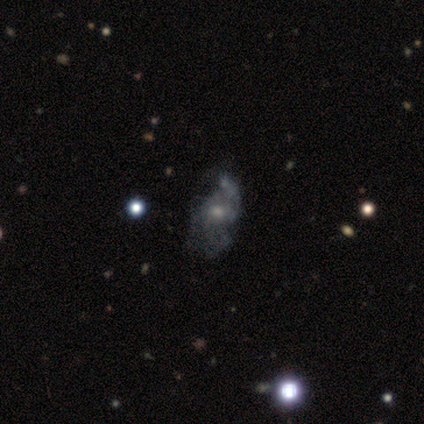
Smooth or featured: featured or disk — 80% (smooth — 20%)
Edge-on disk: no — 100%
Bar: no — 75% (weak — 25%)
Spiral arms: yes — 50% (tied with no — 50%)
Spiral winding: loose — 100%
Spiral arm count: 1 — 50% (tied with 2 — 50%)
Bulge size: small — 50% (moderate — 25%)
Merging: minor disturbance — 40% (tied with major disturbance — 40%)